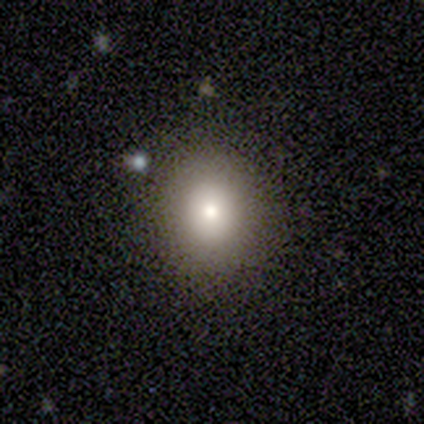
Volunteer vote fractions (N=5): Smooth or featured? smooth (100%)
How rounded? round (80%)
Merging? none (80%)